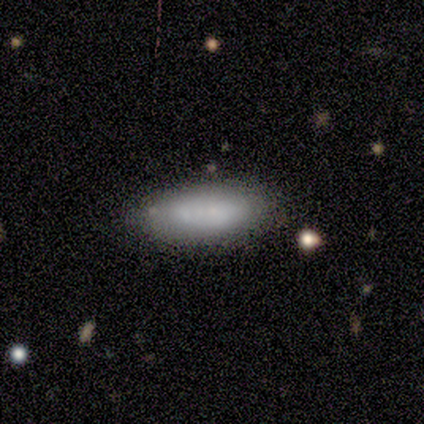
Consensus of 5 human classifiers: Smooth or featured? 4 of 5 (80%) said smooth. How rounded? 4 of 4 (100%) said in between. Merging? 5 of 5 (100%) said none.